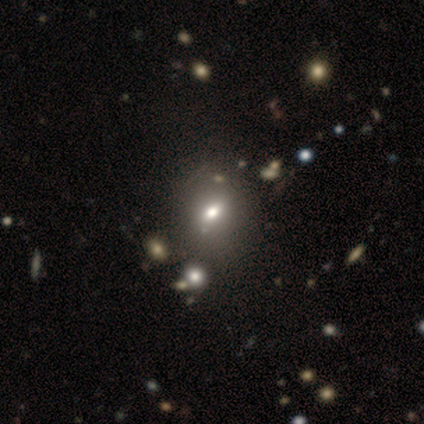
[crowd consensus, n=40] smooth-or-featured: smooth: 70% | featured or disk: 15% | star or artifact: 15%
  how-rounded: in between: 57% | round: 43% | cigar-shaped: 0%
  merging: none: 56% | minor disturbance: 15% | merger: 12% | major disturbance: 0%